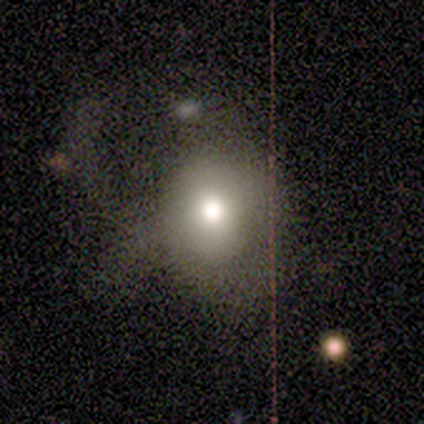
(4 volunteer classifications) Smooth or featured: smooth — 50% (tied with featured or disk — 50%)
How rounded: round — 100%
Merging: major disturbance — 75% (none — 25%)